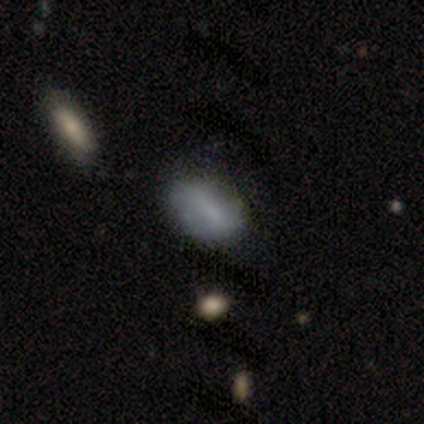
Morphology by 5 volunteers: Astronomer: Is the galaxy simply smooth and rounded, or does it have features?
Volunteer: featured or disk — 60% (runner-up: smooth, 40%).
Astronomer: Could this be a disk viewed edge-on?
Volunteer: no — 100%.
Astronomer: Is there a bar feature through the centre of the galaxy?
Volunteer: strong — 33%, tied with weak and no at 33%.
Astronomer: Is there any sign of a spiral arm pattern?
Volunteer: yes — 67%.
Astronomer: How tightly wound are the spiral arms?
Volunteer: tight — 50%, tied with loose at 50%.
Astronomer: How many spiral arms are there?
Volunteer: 2 — 50%, tied with can't tell at 50%.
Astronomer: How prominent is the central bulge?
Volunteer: moderate — 67%.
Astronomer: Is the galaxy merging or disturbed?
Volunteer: none — 60% (runner-up: minor disturbance, 40%).